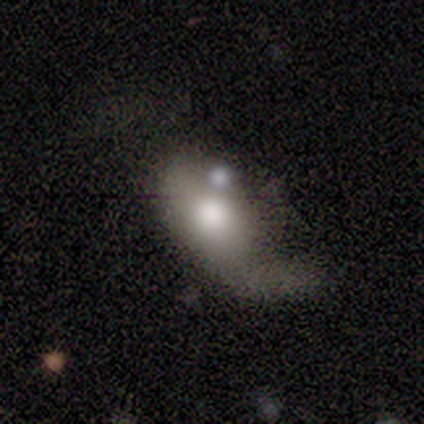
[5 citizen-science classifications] smooth_or_featured: smooth (p=0.60) [alt: featured or disk p=0.40]
how_rounded: in between (p=1.00)
merging: major disturbance (p=0.60) [alt: minor disturbance p=0.20]